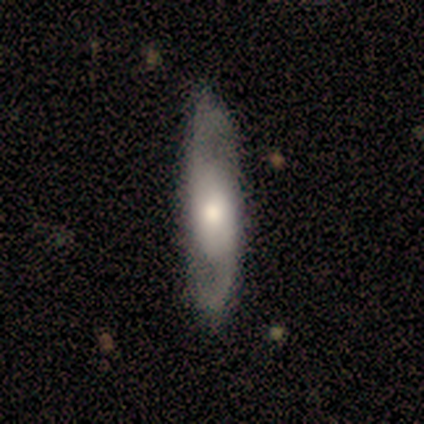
Smooth or featured? 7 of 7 (100%) said featured or disk. Edge-on disk? 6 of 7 (86%) said no. Bar? 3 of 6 (50%) said no. Spiral arms? 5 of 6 (83%) said yes. Spiral winding? 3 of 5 (60%) said loose. Spiral arm count? 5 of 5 (100%) said 2. Bulge size? 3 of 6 (50%) said moderate. Merging? 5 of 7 (71%) said none.